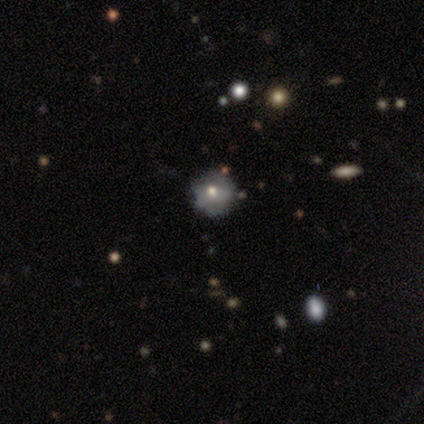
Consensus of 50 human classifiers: smooth-or-featured: featured or disk: 48% | smooth: 44% | star or artifact: 8%
  disk-edge-on: no: 100% | yes: 0%
    bar: no: 79% | weak: 21% | strong: 0%
    has-spiral-arms: no: 67% | yes: 33%
    bulge-size: moderate: 46% | small: 42% | large: 12% | dominant: 0% | none: 0%
  merging: none: 67% | minor disturbance: 24% | major disturbance: 7% | merger: 2%